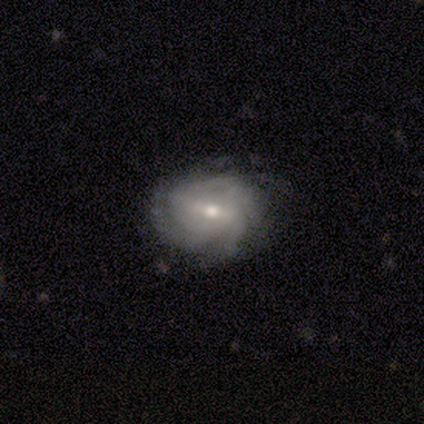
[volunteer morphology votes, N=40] featured or disk 75%, smooth 18%, star or artifact 8%. Down the decision tree: edge-on disk — no (97%); bar — weak (41%); spiral arms — yes (90%); spiral arm count — can't tell (50%); spiral winding — medium (50%); bulge size — moderate (76%); merging — none (81%).